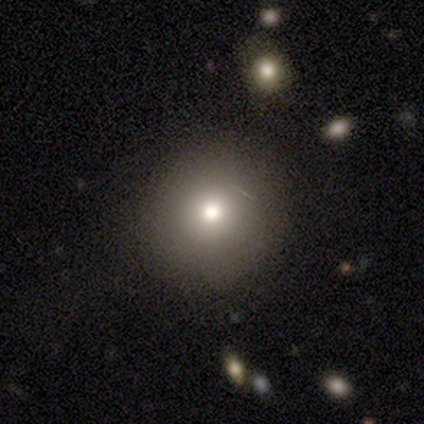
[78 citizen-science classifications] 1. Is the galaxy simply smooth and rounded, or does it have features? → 82% smooth, 12% star or artifact, 6% featured or disk.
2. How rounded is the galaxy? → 95% round, 5% in between, 0% cigar-shaped.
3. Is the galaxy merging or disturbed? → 45% none, 3% minor disturbance, 3% merger, 0% major disturbance.